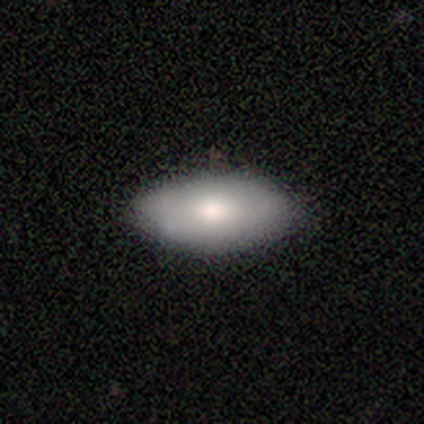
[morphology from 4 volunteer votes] A smooth galaxy with no disk features (100%) that is in between round and cigar-shaped (75%).

Vote fractions:
- Smooth or featured? smooth: 100% / featured or disk: 0% / star or artifact: 0%
- How rounded? in between: 75% / cigar-shaped: 25% / round: 0%
- Merging? none: 100% / minor disturbance: 0% / major disturbance: 0% / merger: 0%